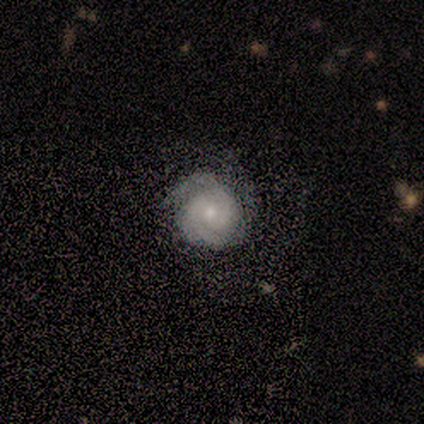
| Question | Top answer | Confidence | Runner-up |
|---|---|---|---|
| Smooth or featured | featured or disk | 80% | smooth (20%) |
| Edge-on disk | no | 100% | — |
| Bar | no | 100% | — |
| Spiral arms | yes | 75% | no (25%) |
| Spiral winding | tight | 100% | — |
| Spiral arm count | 2 | 67% | 4 (33%) |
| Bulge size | small | 50% | moderate (25%) |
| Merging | none | 40% | tied: major disturbance (40%) |